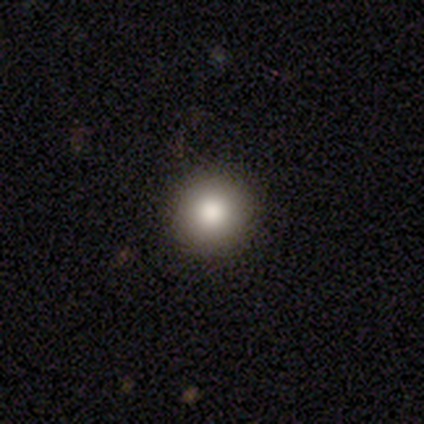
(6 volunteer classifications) Morphology: type=smooth (83%); roundness=round (80%); merging=none (100%).